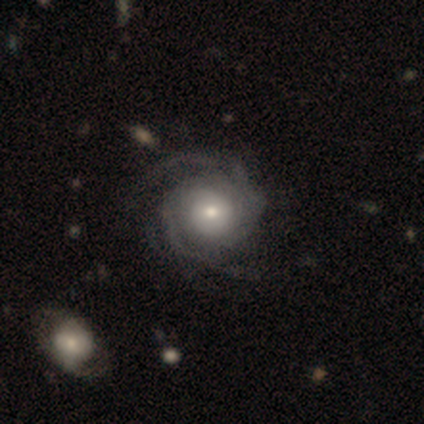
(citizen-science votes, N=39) featured or disk 100%, smooth 0%, star or artifact 0%. Down the decision tree: edge-on disk — no (97%); bar — no (92%); spiral arms — yes (95%); spiral arm count — can't tell (44%); spiral winding — tight (58%); bulge size — moderate (55%); merging — none (46%).